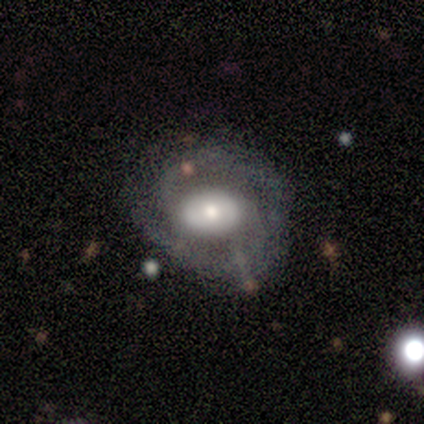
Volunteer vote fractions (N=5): Morphology: type=featured or disk (60%); edge-on=no (100%); bar=no (67%); spiral arms=yes (67%); winding=tight (50%, tied with medium); arm count=1 (50%, tied with 2); bulge=large (33%, tied with moderate and small); merging=none (75%).